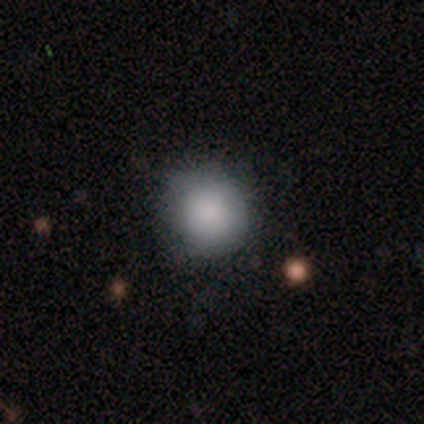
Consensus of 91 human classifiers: This is clearly a smooth galaxy (87%). How rounded: clearly round (94%). Merging: likely none (73%).